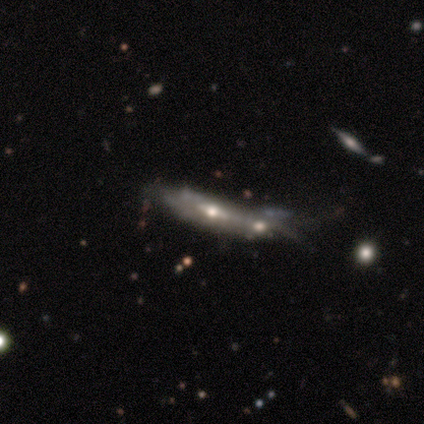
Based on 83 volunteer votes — A featured or disk galaxy (71%) viewed edge-on (56%) with a rounded central bulge (88%).

Vote fractions:
- Smooth or featured? featured or disk: 71% / smooth: 23% / star or artifact: 6%
- Edge-on disk? yes: 56% / no: 44%
- Edge-on bulge? rounded: 88% / none: 9% / boxy: 3%
- Merging? merger: 50% / minor disturbance: 26% / none: 17% / major disturbance: 8%